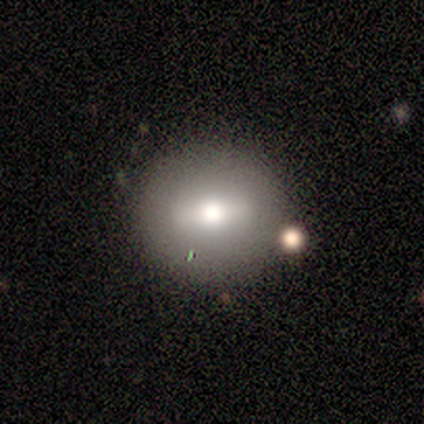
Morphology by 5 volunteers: A featured or disk galaxy (60%) with a strong bar (67%), no spiral arms (100%) and a large central bulge (67%). Merging: none (100%).